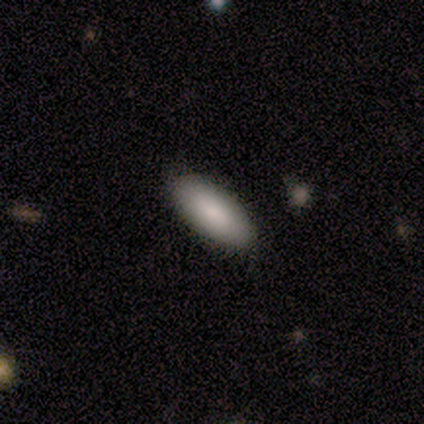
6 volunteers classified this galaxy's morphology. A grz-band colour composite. It shows a smooth galaxy with no disk features (83%) that is in between round and cigar-shaped (100%). Merging: none (83%).